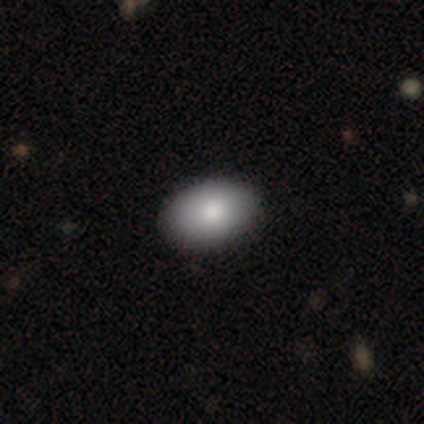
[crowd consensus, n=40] This is clearly a smooth galaxy (90%). How rounded: clearly in between (89%). Merging: likely none (62%).